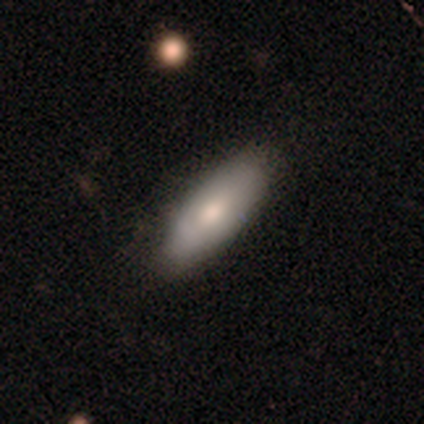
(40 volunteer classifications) Volunteers were most divided on "how rounded": in between: 52%, cigar-shaped: 48%, round: 0%. More confident: merging — none (69%); smooth or featured — smooth (68%).